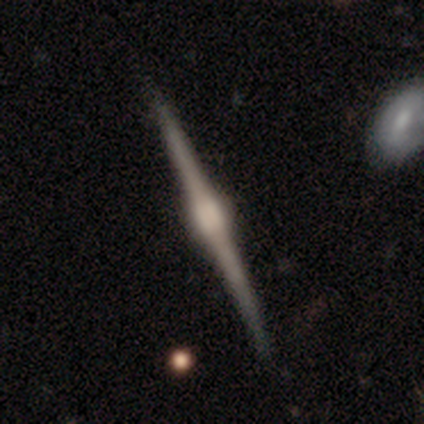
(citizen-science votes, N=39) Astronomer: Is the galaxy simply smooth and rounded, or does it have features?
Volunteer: featured or disk — 92%.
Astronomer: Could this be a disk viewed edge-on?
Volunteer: yes — 100%.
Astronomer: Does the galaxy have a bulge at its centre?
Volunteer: rounded — 64%.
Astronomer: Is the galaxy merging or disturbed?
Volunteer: none — 87%.